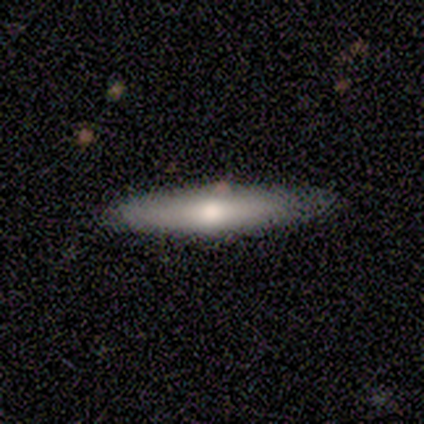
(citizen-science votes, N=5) Volunteers were most divided on "how rounded": cigar-shaped: 60%, in between: 40%, round: 0%. More confident: smooth or featured — smooth (100%); merging — none (100%).